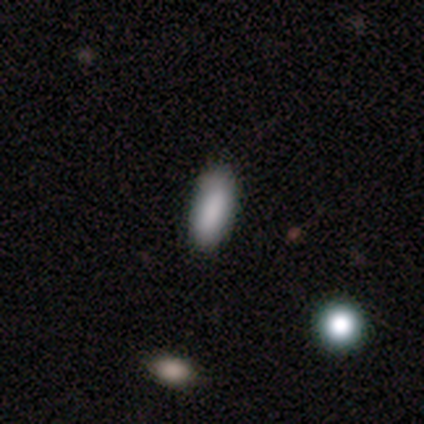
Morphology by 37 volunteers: A smooth galaxy with no disk features (84%) that is in between round and cigar-shaped (68%). Merging: none (85%).